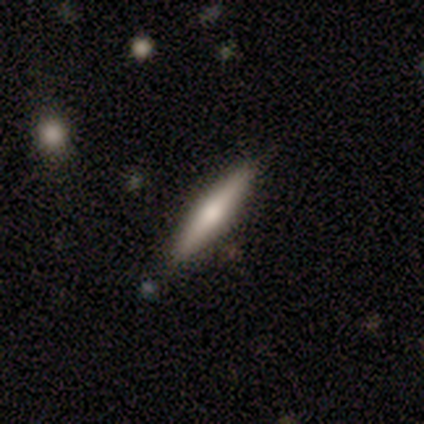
smooth-or-featured: featured or disk: 60% | smooth: 40% | star or artifact: 0%
  disk-edge-on: yes: 67% | no: 33%
    edge-on-bulge: none: 50% (tied) | rounded: 50% (tied) | boxy: 0%
  merging: none: 60% | minor disturbance: 40% | major disturbance: 0% | merger: 0%